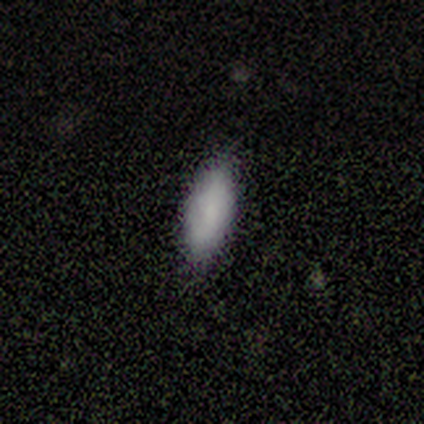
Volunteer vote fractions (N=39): A smooth galaxy with no disk features (79%) that is in between round and cigar-shaped (71%). Merging: none (80%).